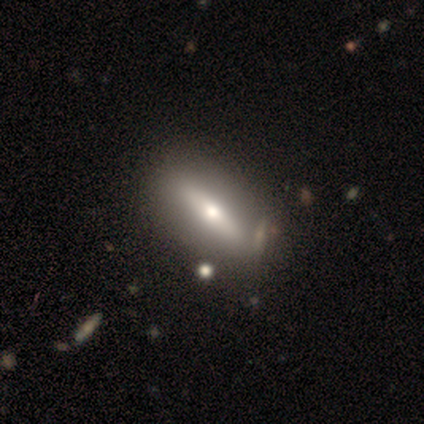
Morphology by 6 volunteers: smooth-or-featured: featured or disk: 67% | smooth: 33% | star or artifact: 0%
  disk-edge-on: yes: 50% (tied) | no: 50% (tied)
    edge-on-bulge: rounded: 100% | boxy: 0% | none: 0%
  merging: minor disturbance: 50% | merger: 33% | none: 17% | major disturbance: 0%